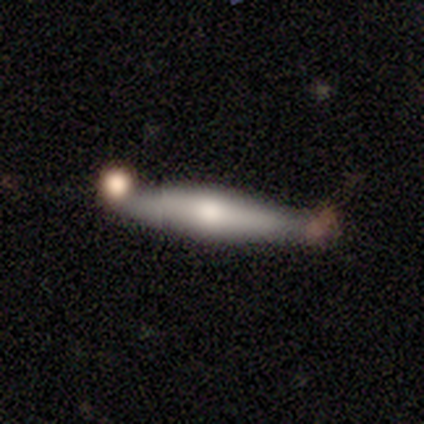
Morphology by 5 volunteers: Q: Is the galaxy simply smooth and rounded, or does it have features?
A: smooth — 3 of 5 (60%).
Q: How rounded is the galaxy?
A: cigar-shaped — 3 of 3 (100%).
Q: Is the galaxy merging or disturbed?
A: minor disturbance — 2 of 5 (40%, tied with merger).